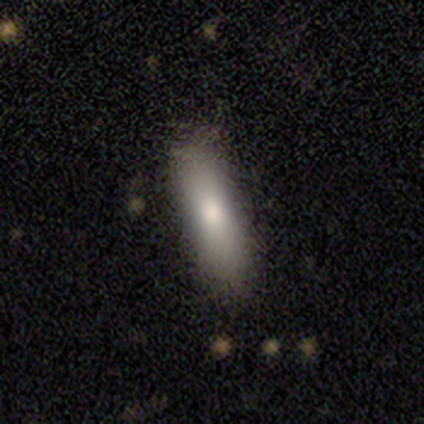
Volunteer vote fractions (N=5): smooth-or-featured: smooth: 100% | featured or disk: 0% | star or artifact: 0%
  how-rounded: cigar-shaped: 60% | in between: 40% | round: 0%
  merging: none: 80% | minor disturbance: 20% | major disturbance: 0% | merger: 0%